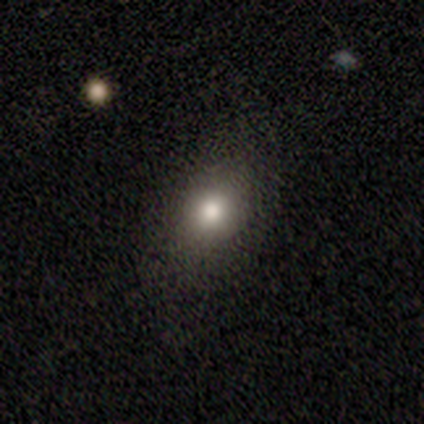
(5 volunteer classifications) This is clearly a smooth galaxy (80%). How rounded: possibly in between (50%). Merging: clearly none (100%).